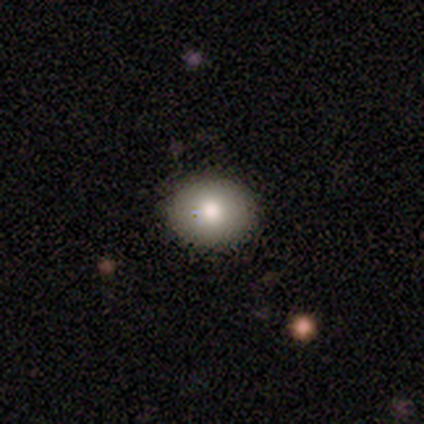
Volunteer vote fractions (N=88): smooth-or-featured: smooth: 82% | featured or disk: 14% | star or artifact: 5%
  how-rounded: round: 54% | in between: 46% | cigar-shaped: 0%
  merging: none: 87% | minor disturbance: 8% | major disturbance: 4% | merger: 1%